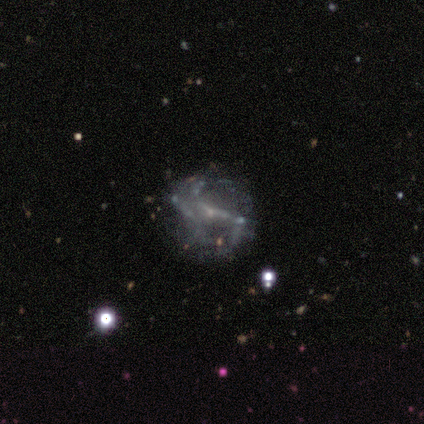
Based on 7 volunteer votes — Smooth or featured? featured or disk (100%)
Edge-on disk? no (86%)
Bar? strong (67%)
Spiral arms? yes (83%)
Spiral winding? loose (60%)
Spiral arm count? 2 (60%)
Bulge size? small (83%)
Merging? none (86%)